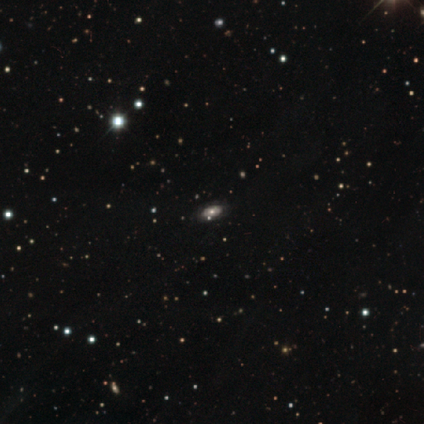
Volunteers were most divided on "smooth or featured": smooth: 38%, featured or disk: 31%, star or artifact: 31%. More confident: merging — none (89%); how rounded — in between (87%).